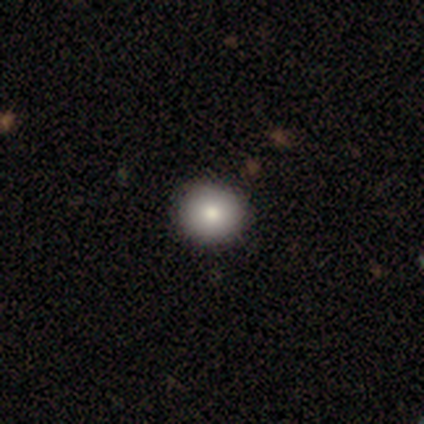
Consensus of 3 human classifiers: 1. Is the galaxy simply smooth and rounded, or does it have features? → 67% featured or disk, 33% star or artifact, 0% smooth.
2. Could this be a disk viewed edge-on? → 100% no, 0% yes.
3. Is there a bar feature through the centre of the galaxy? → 100% no, 0% strong, 0% weak.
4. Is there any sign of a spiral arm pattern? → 100% no, 0% yes.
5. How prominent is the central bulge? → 100% moderate, 0% dominant, 0% large, 0% small, 0% none.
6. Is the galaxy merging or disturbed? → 100% none, 0% minor disturbance, 0% major disturbance, 0% merger.